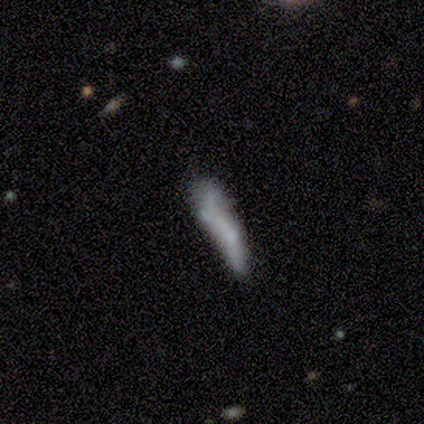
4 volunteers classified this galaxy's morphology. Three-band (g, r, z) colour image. It shows a featured or disk galaxy (75%) with no bar (100%), no spiral arms (100%) and no central bulge (100%). Merging: none (75%).